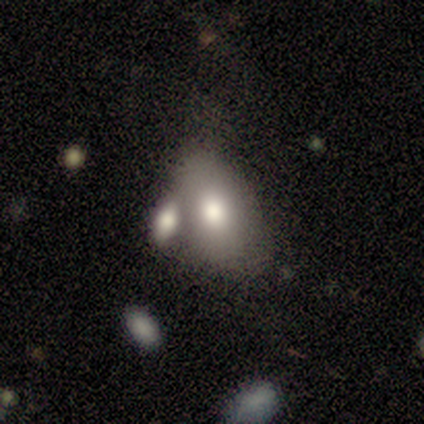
This appears to be a smooth galaxy with no disk features (100%) that is in between round and cigar-shaped (100%). Merging: none (60%).